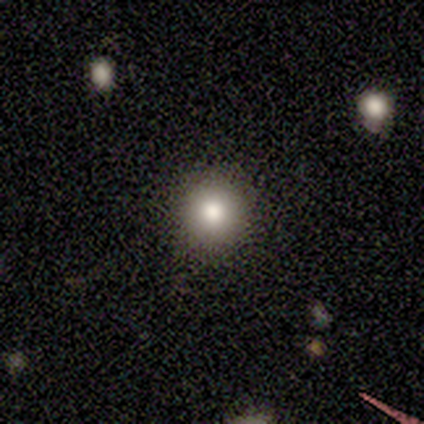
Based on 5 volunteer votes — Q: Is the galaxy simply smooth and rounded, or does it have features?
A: smooth — 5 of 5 (100%).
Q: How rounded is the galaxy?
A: round — 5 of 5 (100%).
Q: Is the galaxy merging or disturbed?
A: none — 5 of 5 (100%).